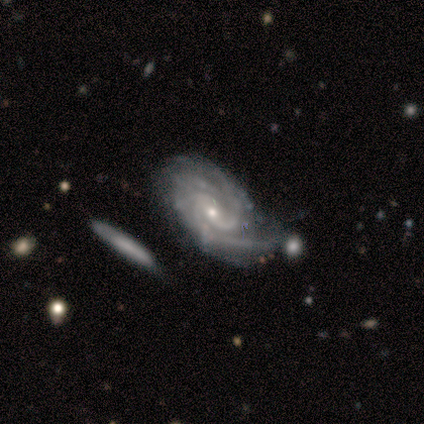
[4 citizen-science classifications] A featured or disk galaxy (100%) with no bar (75%), 2 (50%) tight (100%) spiral arms (100%) and a small central bulge (100%).

Vote fractions:
- Smooth or featured? featured or disk: 100% / smooth: 0% / star or artifact: 0%
- Edge-on disk? no: 100% / yes: 0%
- Bar? no: 75% / weak: 25% / strong: 0%
- Spiral arms? yes: 100% / no: 0%
- Spiral winding? tight: 100% / medium: 0% / loose: 0%
- Spiral arm count? 2: 50% / 3: 25% / 4: 25% / 1: 0% / more than 4: 0% / can't tell: 0%
- Bulge size? small: 100% / dominant: 0% / large: 0% / moderate: 0% / none: 0%
- Merging? none: 75% / minor disturbance: 25% / major disturbance: 0% / merger: 0%